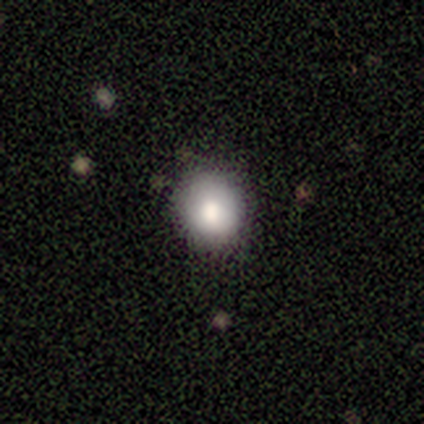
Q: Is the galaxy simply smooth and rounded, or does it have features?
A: smooth — 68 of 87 (78%).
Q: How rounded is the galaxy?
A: round — 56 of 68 (82%).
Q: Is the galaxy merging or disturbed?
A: none — 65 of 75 (87%).